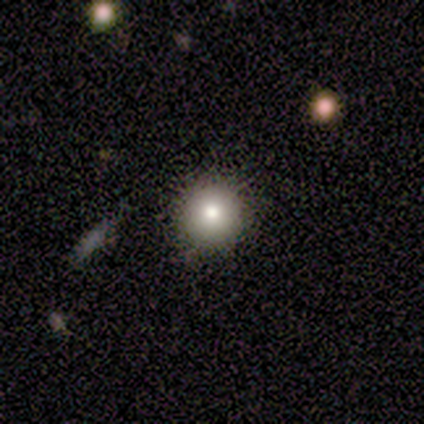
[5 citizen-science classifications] Smooth or featured?
  - smooth: 100% *
  - featured or disk: 0%
  - star or artifact: 0%
How rounded?
  - round: 100% *
  - in between: 0%
  - cigar-shaped: 0%
Merging?
  - none: 100% *
  - minor disturbance: 0%
  - major disturbance: 0%
  - merger: 0%